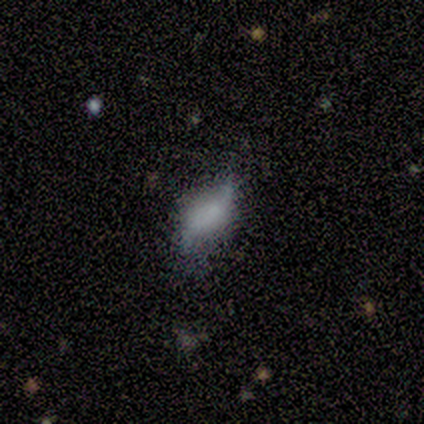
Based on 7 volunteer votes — Overall: smooth (43%, tied with featured or disk). How rounded: in between (100%). Merging: none (83%).